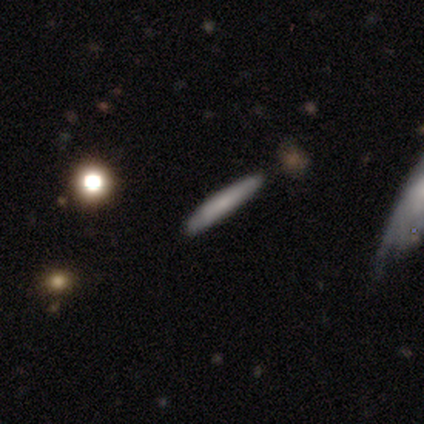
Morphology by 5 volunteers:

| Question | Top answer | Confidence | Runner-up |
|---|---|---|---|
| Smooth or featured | smooth | 80% | featured or disk (20%) |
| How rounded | cigar-shaped | 100% | — |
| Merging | none | 100% | — |